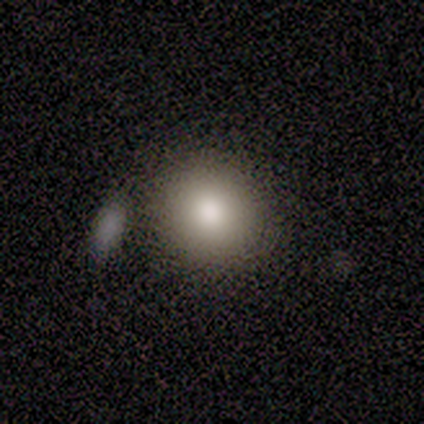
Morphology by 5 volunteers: Smooth or featured: smooth — 100%
How rounded: round — 80% (in between — 20%)
Merging: none — 60% (minor disturbance — 20%)